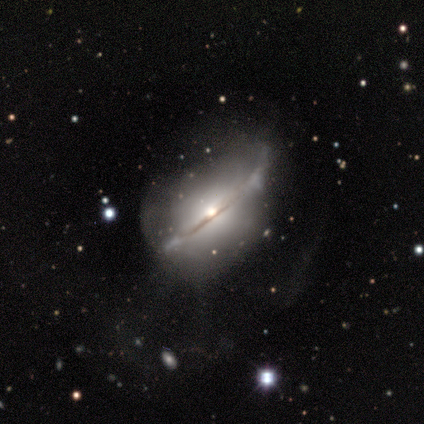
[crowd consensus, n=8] Morphology: type=featured or disk (75%); edge-on=yes (50%, tied with no); edge-on bulge=rounded (100%); merging=none (38%, tied with major disturbance).